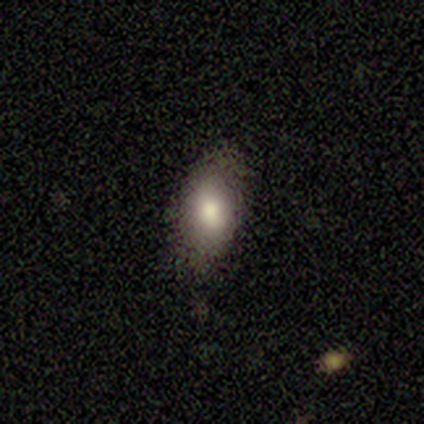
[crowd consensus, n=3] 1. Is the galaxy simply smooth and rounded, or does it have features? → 67% smooth, 33% featured or disk, 0% star or artifact.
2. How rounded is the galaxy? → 100% in between, 0% round, 0% cigar-shaped.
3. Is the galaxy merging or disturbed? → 67% none, 33% major disturbance, 0% minor disturbance, 0% merger.